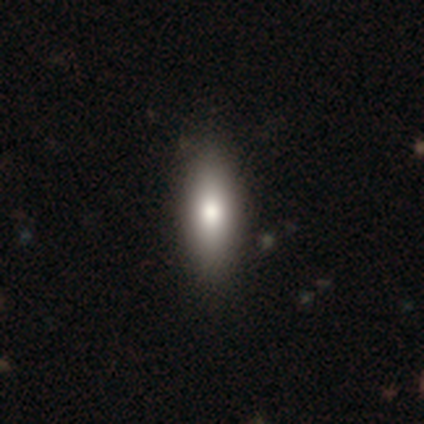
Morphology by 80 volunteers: smooth_or_featured: smooth (p=0.81) [alt: featured or disk p=0.11]
how_rounded: in between (p=0.66) [alt: cigar-shaped p=0.32]
merging: none (p=0.47) [alt: minor disturbance p=0.03]